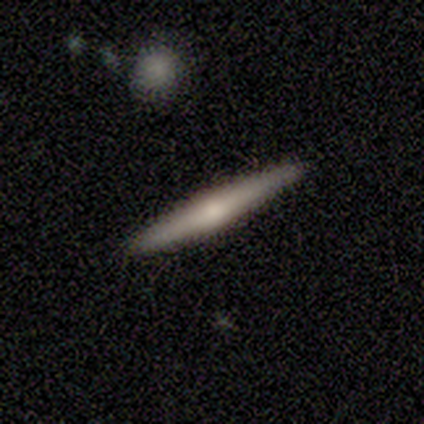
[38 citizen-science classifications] A featured or disk galaxy (74%) viewed edge-on (93%) with a rounded central bulge (85%).

Vote fractions:
- Smooth or featured? featured or disk: 74% / smooth: 26% / star or artifact: 0%
- Edge-on disk? yes: 93% / no: 7%
- Edge-on bulge? rounded: 85% / none: 12% / boxy: 4%
- Merging? none: 66% / minor disturbance: 0% / major disturbance: 0% / merger: 0%